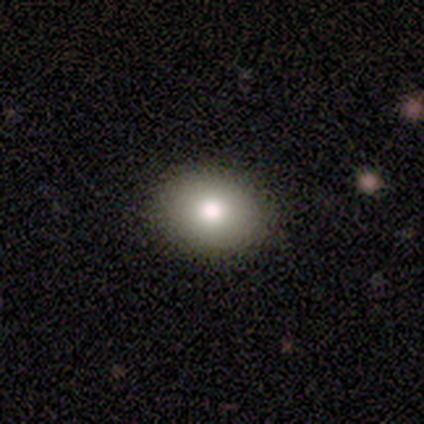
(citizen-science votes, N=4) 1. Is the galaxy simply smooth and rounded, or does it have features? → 75% smooth, 25% featured or disk, 0% star or artifact.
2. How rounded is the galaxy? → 67% round, 33% in between, 0% cigar-shaped.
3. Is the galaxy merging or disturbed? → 100% none, 0% minor disturbance, 0% major disturbance, 0% merger.